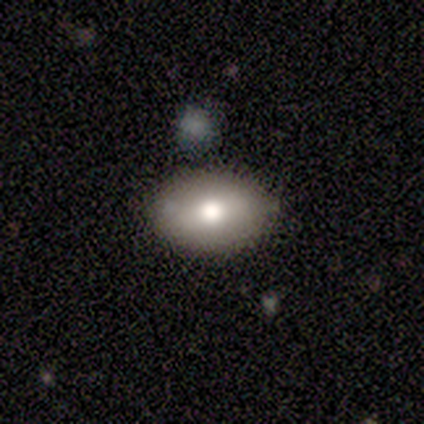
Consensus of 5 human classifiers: Q: Smooth or featured?
A: smooth (80%); runner-up: featured or disk (20%)
Q: How rounded?
A: in between (100%)
Q: Merging?
A: none (100%)